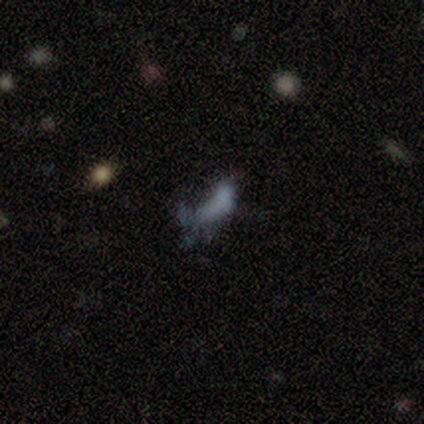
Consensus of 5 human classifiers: smooth-or-featured: featured or disk: 60% | smooth: 40% | star or artifact: 0%
  disk-edge-on: no: 100% | yes: 0%
    bar: no: 100% | strong: 0% | weak: 0%
    has-spiral-arms: no: 67% | yes: 33%
    bulge-size: none: 67% | small: 33% | dominant: 0% | large: 0% | moderate: 0%
  merging: minor disturbance: 60% | none: 20% | major disturbance: 20% | merger: 0%